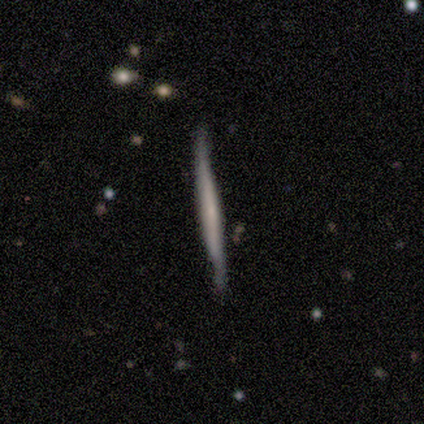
Q: Smooth or featured?
A: featured or disk (60%); runner-up: smooth (40%)
Q: Edge-on disk?
A: yes (100%)
Q: Edge-on bulge?
A: boxy (67%); runner-up: none (33%)
Q: Merging?
A: none (100%)